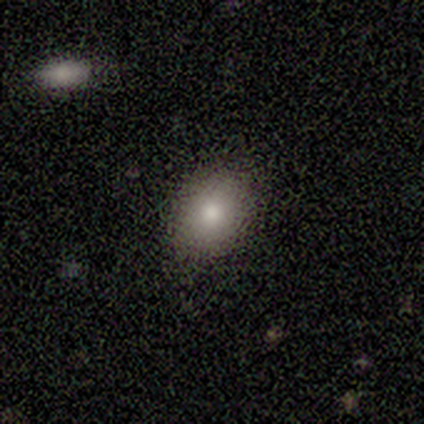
Morphology: type=smooth (86%); roundness=in between (52%); merging=none (83%).